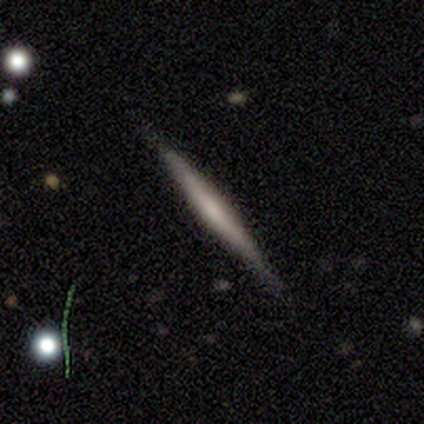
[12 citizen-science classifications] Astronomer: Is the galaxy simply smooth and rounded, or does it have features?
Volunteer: featured or disk — 58% (runner-up: smooth, 42%).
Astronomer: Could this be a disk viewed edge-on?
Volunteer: yes — 100%.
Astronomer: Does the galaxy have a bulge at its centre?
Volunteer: rounded — 86%.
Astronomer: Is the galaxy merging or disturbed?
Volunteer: none — 83%.